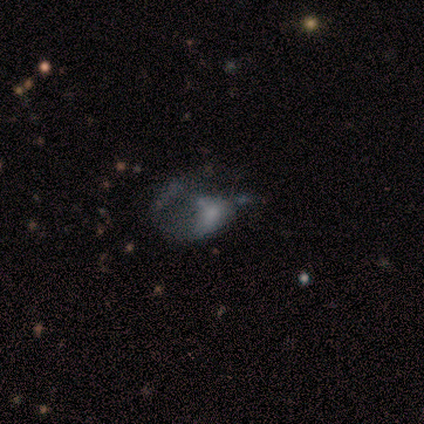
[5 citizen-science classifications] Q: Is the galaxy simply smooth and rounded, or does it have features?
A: smooth — 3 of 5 (60%).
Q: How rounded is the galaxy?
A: in between — 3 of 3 (100%).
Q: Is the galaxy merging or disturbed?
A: major disturbance — 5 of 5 (100%).